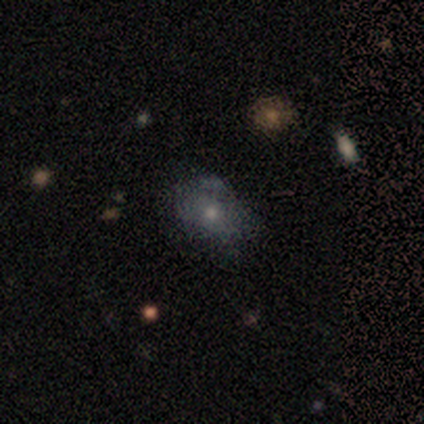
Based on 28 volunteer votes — Smooth or featured: smooth — 54% (featured or disk — 25%)
How rounded: in between — 80% (round — 20%)
Merging: none — 50% (minor disturbance — 36%)